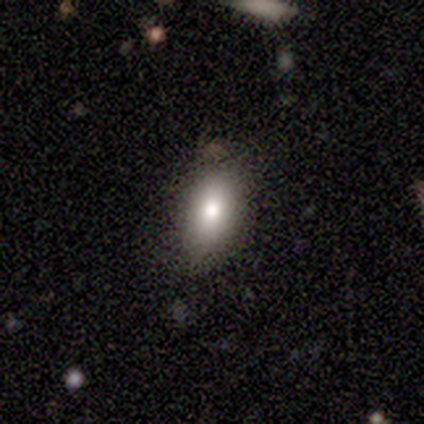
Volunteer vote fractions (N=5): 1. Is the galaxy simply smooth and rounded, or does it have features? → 80% smooth, 20% star or artifact, 0% featured or disk.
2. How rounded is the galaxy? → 100% in between, 0% round, 0% cigar-shaped.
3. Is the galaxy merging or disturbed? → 50% none (tied), 50% minor disturbance (tied), 0% major disturbance, 0% merger.